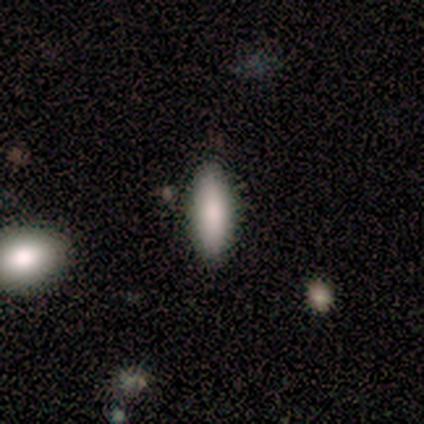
smooth_or_featured: smooth (p=1.00)
how_rounded: cigar-shaped (p=0.60) [alt: in between p=0.40]
merging: none (p=1.00)